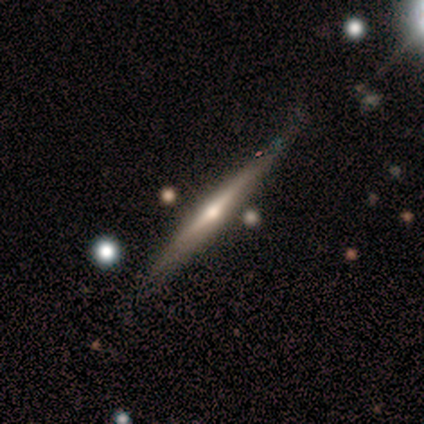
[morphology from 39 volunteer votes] This appears to be a featured or disk galaxy (82%) viewed edge-on (94%) with a rounded central bulge (83%). Merging: none (74%).